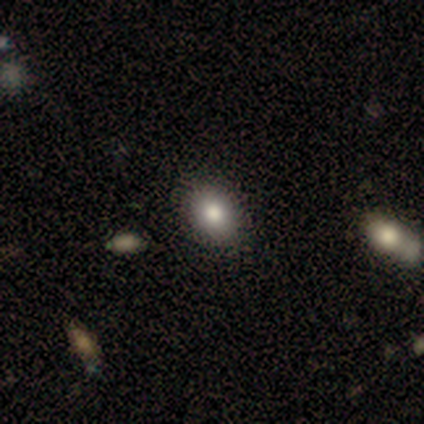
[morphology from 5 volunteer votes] smooth 100%, featured or disk 0%, star or artifact 0%. Down the decision tree: how rounded — in between (100%); merging — none (100%).